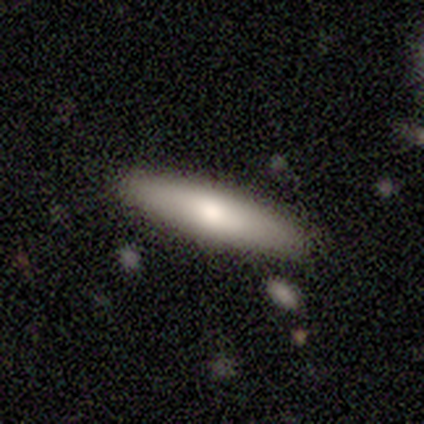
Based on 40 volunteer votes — A smooth galaxy with no disk features (72%) that is cigar-shaped (86%).

Vote fractions:
- Smooth or featured? smooth: 72% / featured or disk: 25% / star or artifact: 2%
- How rounded? cigar-shaped: 86% / in between: 14% / round: 0%
- Merging? none: 85% / minor disturbance: 10% / major disturbance: 3% / merger: 3%